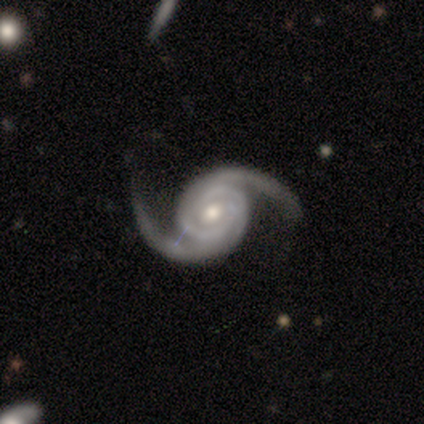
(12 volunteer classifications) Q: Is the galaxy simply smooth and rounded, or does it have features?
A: featured or disk — 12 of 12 (100%).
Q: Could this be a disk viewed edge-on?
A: no — 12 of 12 (100%).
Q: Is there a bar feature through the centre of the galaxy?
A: no — 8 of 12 (67%).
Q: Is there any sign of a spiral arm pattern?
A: yes — 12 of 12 (100%).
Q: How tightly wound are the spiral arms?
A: medium — 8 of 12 (67%).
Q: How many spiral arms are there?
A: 2 — 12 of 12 (100%).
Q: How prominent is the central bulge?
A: moderate — 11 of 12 (92%).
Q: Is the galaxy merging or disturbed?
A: none — 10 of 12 (83%).